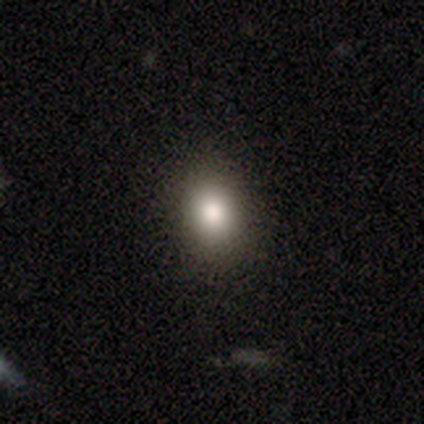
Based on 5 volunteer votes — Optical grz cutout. It shows a smooth galaxy with no disk features (80%) that is round (50%, tied with in between). Merging: none (100%).